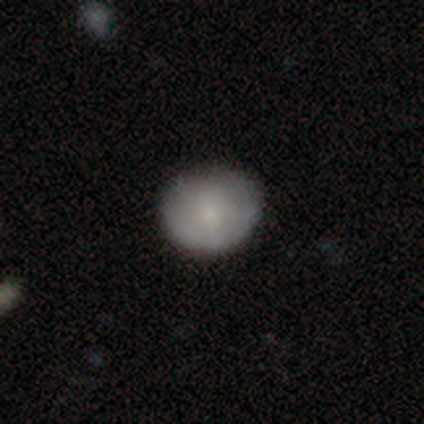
featured or disk 60%, smooth 20%, star or artifact 20%. Down the decision tree: edge-on disk — no (100%); bar — no (100%); spiral arms — no (100%); bulge size — moderate (67%); merging — none (50%, tied with minor disturbance).